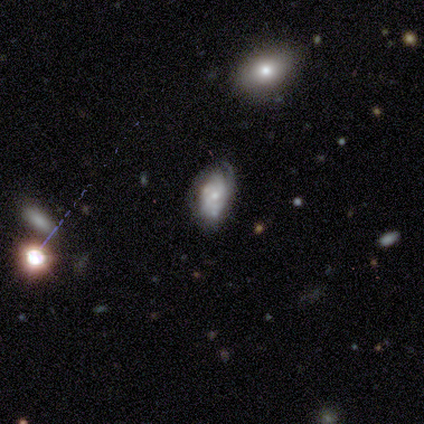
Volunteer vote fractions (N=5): Smooth or featured?
  - smooth: 40% * (tied)
  - featured or disk: 40% * (tied)
  - star or artifact: 20%
How rounded?
  - in between: 100% *
  - round: 0%
  - cigar-shaped: 0%
Merging?
  - none: 50% *
  - minor disturbance: 25%
  - major disturbance: 25%
  - merger: 0%